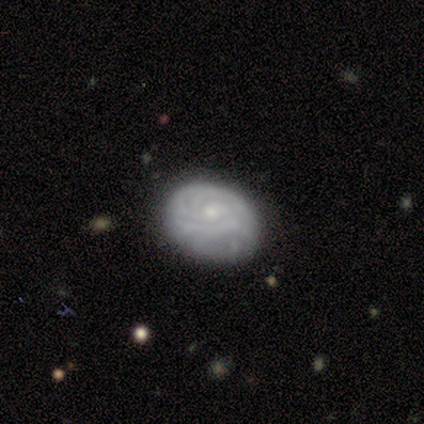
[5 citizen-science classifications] This is clearly a featured or disk galaxy (80%). It is clearly not viewed edge-on (100%). Bar: clearly no (100%). Spiral arm pattern: likely yes (75%). Spiral arm count: likely can't tell (67%). Spiral winding: likely medium (67%). Central bulge: clearly small (100%). Merging: clearly none (100%).